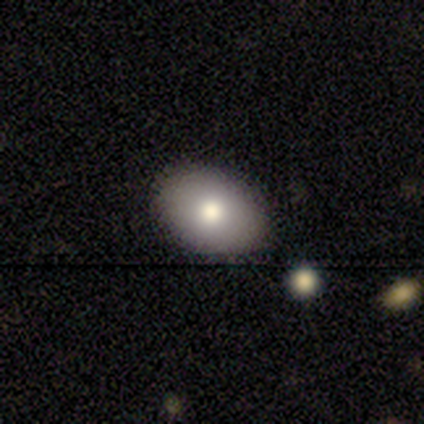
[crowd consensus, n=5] Smooth or featured? smooth (100%)
How rounded? in between (80%)
Merging? none (60%)